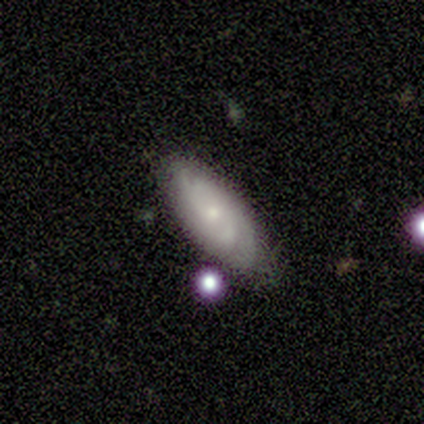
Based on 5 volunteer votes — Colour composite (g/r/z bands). It shows a smooth galaxy with no disk features (80%) that is in between round and cigar-shaped (75%). Merging: none (60%).